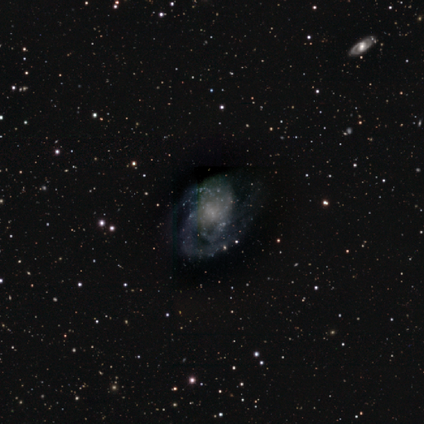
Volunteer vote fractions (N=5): Smooth or featured: featured or disk — 100%
Edge-on disk: no — 100%
Bar: no — 60% (strong — 20%)
Spiral arms: yes — 100%
Spiral winding: tight — 60% (medium — 40%)
Spiral arm count: 3 — 60% (can't tell — 40%)
Bulge size: small — 60% (none — 40%)
Merging: none — 80% (minor disturbance — 20%)